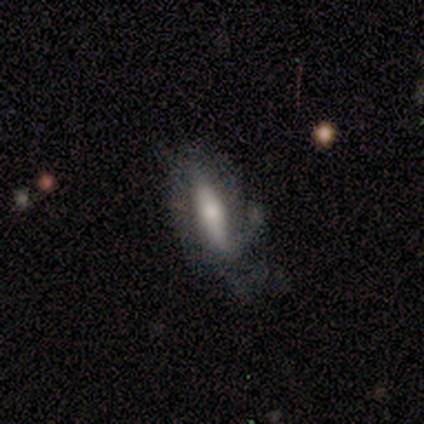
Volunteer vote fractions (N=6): smooth 50%, star or artifact 33%, featured or disk 17%. Down the decision tree: how rounded — cigar-shaped (67%); merging — minor disturbance (75%).